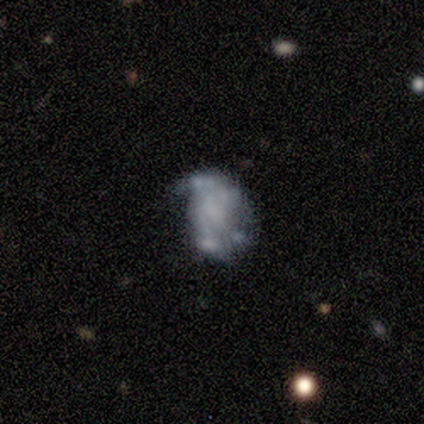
Smooth or featured? 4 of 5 (80%) said featured or disk. Edge-on disk? 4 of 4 (100%) said no. Bar? 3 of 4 (75%) said no. Spiral arms? 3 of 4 (75%) said no. Bulge size? 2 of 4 (50%) said none. Merging? 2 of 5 (40%) said merger.